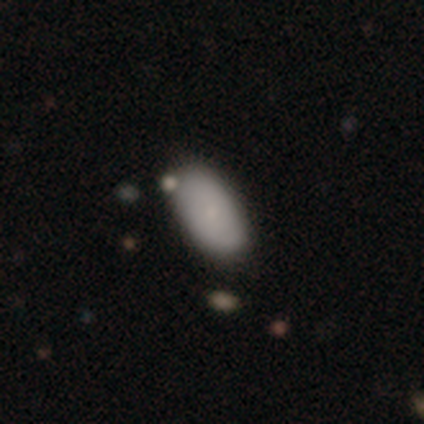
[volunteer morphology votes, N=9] Smooth or featured? smooth (67%)
How rounded? in between (100%)
Merging? none (50%)